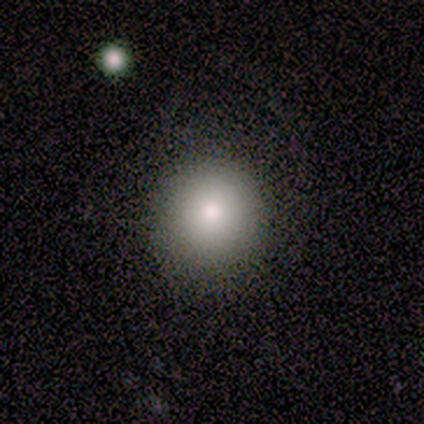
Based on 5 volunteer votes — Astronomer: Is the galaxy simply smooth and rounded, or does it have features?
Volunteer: smooth — 60%.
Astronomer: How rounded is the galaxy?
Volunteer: round — 100%.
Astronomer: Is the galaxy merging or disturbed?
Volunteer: none — 100%.